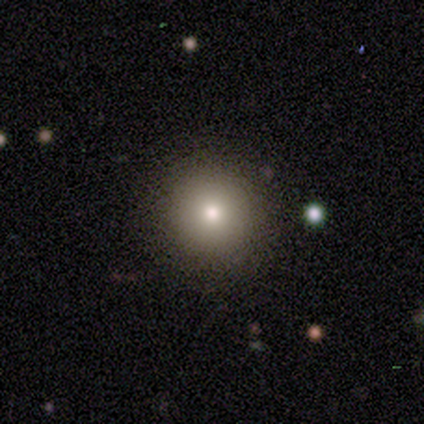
smooth-or-featured: smooth: 80% | star or artifact: 20% | featured or disk: 0%
  how-rounded: round: 100% | in between: 0% | cigar-shaped: 0%
  merging: none: 100% | minor disturbance: 0% | major disturbance: 0% | merger: 0%